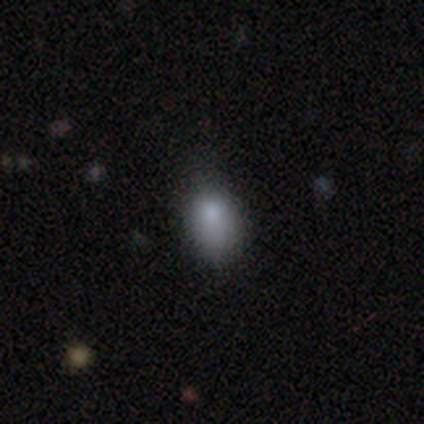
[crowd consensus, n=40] Smooth or featured? smooth (80%)
How rounded? in between (94%)
Merging? none (45%)